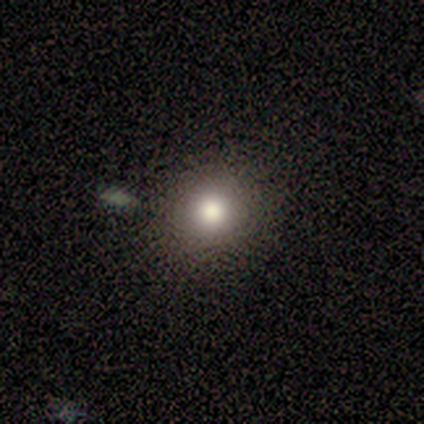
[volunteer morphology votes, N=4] Smooth or featured?
  - smooth: 75% *
  - star or artifact: 25%
  - featured or disk: 0%
How rounded?
  - round: 100% *
  - in between: 0%
  - cigar-shaped: 0%
Merging?
  - none: 67% *
  - major disturbance: 33%
  - minor disturbance: 0%
  - merger: 0%